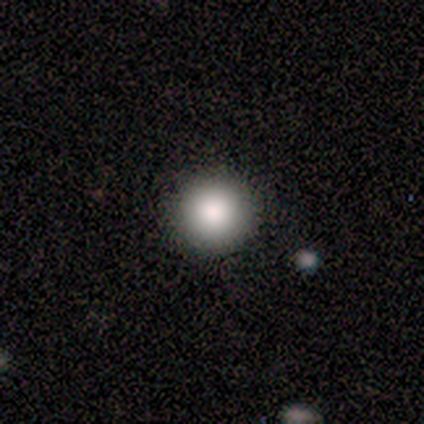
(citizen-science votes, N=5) This is clearly a smooth galaxy (100%). How rounded: clearly round (100%). Merging: clearly none (100%).